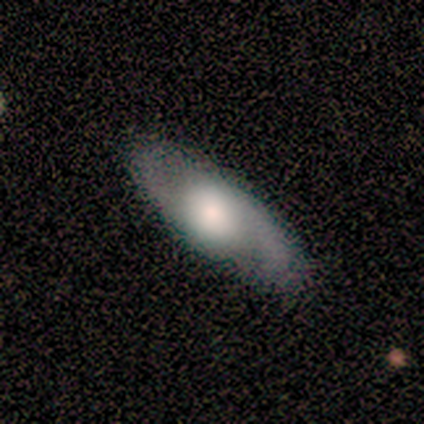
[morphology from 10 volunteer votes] type=smooth (50%, tied with featured or disk); roundness=in between (80%); merging=none (80%).